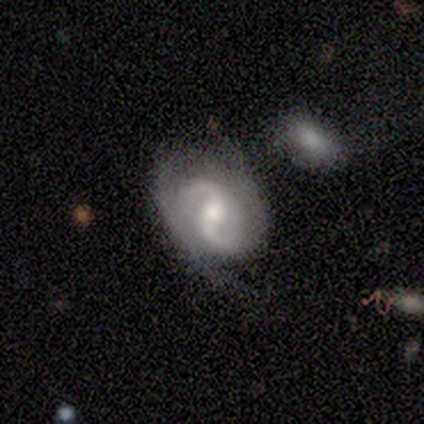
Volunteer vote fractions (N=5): Smooth or featured? featured or disk (100%)
Edge-on disk? no (100%)
Bar? strong (40%, tied with no)
Spiral arms? yes (100%)
Spiral winding? tight (40%, tied with medium)
Spiral arm count? 2 (100%)
Bulge size? small (60%)
Merging? none (40%, tied with minor disturbance)